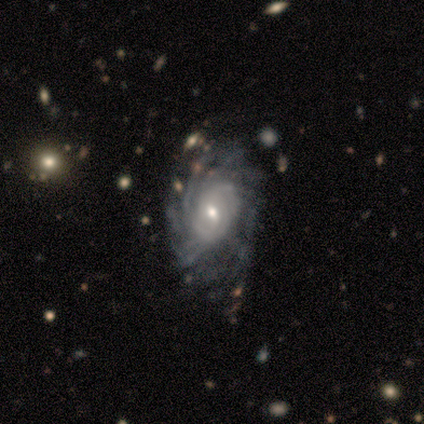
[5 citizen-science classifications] Overall: featured or disk (100%). Edge-on disk: no (100%). Bar: weak (60%; strong 20%). Spiral arms: yes (100%). Spiral arm count: more than 4 (60%; can't tell 40%). Spiral winding: tight (60%; medium 40%). Bulge size: moderate (40%, tied with small). Merging: major disturbance (60%; none 20%).